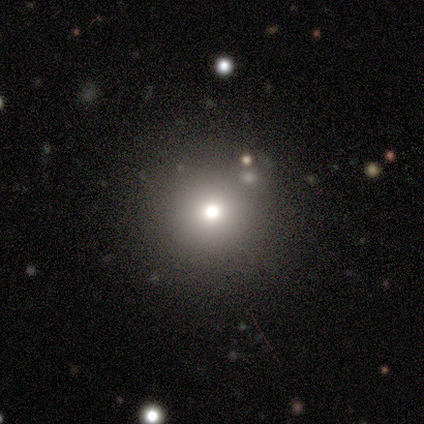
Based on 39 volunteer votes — This is clearly a smooth galaxy (82%). How rounded: clearly round (94%). Merging: clearly none (95%).